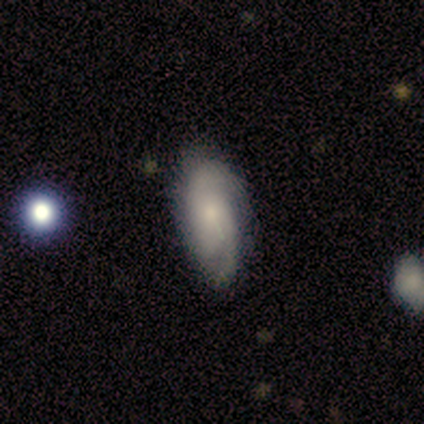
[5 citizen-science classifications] Smooth or featured: featured or disk — 80% (smooth — 20%)
Edge-on disk: no — 100%
Bar: no — 75% (weak — 25%)
Spiral arms: yes — 75% (no — 25%)
Spiral winding: tight — 33% (tied with medium — 33%; loose — 33%)
Spiral arm count: 2 — 100%
Bulge size: small — 75% (none — 25%)
Merging: none — 80% (minor disturbance — 20%)